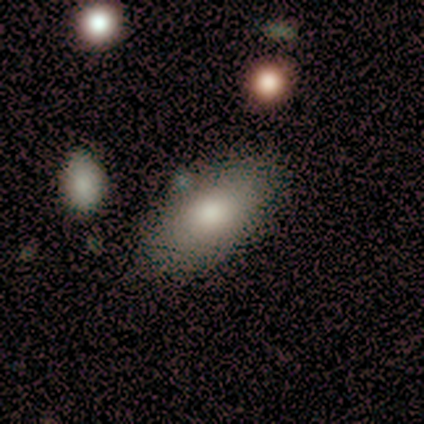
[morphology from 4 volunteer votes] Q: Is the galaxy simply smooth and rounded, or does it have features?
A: smooth — 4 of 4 (100%).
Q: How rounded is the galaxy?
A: in between — 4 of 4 (100%).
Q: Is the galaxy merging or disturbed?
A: none — 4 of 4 (100%).